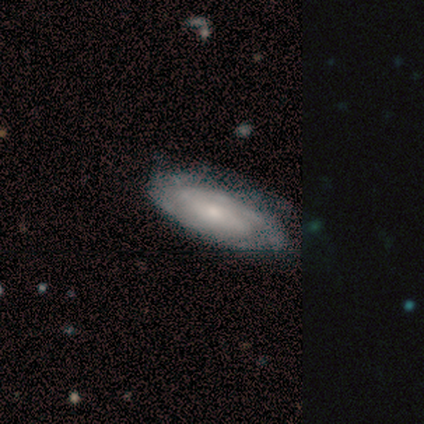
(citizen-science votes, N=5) smooth-or-featured: featured or disk: 60% | smooth: 40% | star or artifact: 0%
  disk-edge-on: no: 100% | yes: 0%
    bar: strong: 33% (tied) | weak: 33% (tied) | no: 33% (tied)
    has-spiral-arms: yes: 100% | no: 0%
      spiral-winding: tight: 100% | medium: 0% | loose: 0%
      spiral-arm-count: 2: 33% (tied) | 3: 33% (tied) | more than 4: 33% (tied) | 1: 0% | 4: 0% | can't tell: 0%
    bulge-size: small: 67% | moderate: 33% | dominant: 0% | large: 0% | none: 0%
  merging: none: 80% | minor disturbance: 20% | major disturbance: 0% | merger: 0%